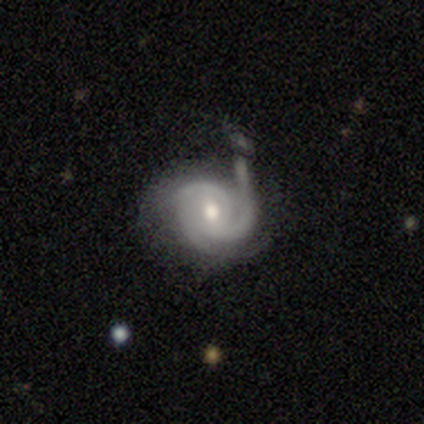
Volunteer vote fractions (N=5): smooth_or_featured: featured or disk (p=1.00)
disk_edge_on: no (p=1.00)
bar: weak (p=0.40) [tied with: no p=0.40]
has_spiral_arms: yes (p=1.00)
spiral_winding: tight (p=1.00)
spiral_arm_count: 2 (p=0.40) [tied with: 3 p=0.40]
bulge_size: moderate (p=1.00)
merging: none (p=0.60) [alt: minor disturbance p=0.20]